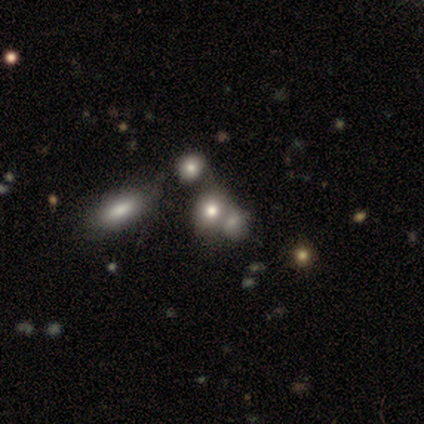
Q: Smooth or featured?
A: smooth (100%)
Q: How rounded?
A: in between (80%); runner-up: round (20%)
Q: Merging?
A: none (40%); tied with: merger (40%)